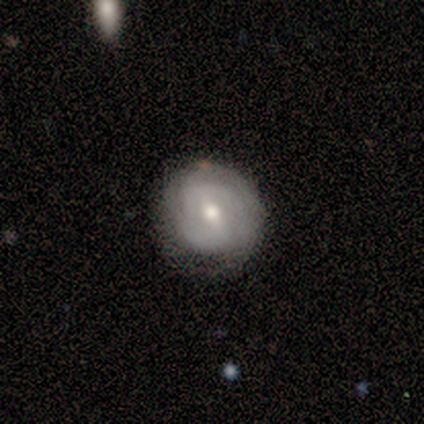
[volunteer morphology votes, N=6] This appears to be a featured or disk galaxy (100%) with a weak bar (50%), tight (83%) spiral arms (100%) and a moderate central bulge (83%). Merging: none (83%).